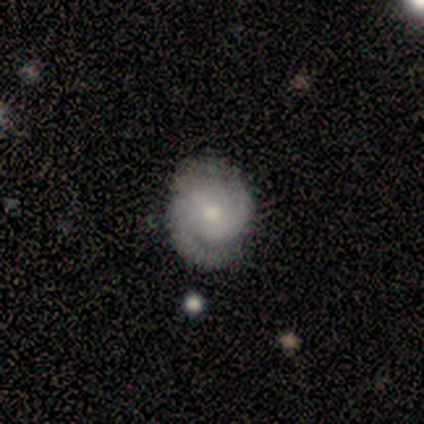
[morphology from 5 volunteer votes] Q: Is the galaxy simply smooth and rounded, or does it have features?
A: featured or disk — 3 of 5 (60%).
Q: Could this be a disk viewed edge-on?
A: no — 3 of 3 (100%).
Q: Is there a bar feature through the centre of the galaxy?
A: no — 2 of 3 (67%).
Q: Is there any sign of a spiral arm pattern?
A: yes — 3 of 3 (100%).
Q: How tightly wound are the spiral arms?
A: tight — 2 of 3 (67%).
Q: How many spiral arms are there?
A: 2 — 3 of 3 (100%).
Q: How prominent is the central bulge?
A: small — 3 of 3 (100%).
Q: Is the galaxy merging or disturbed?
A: none — 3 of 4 (75%).